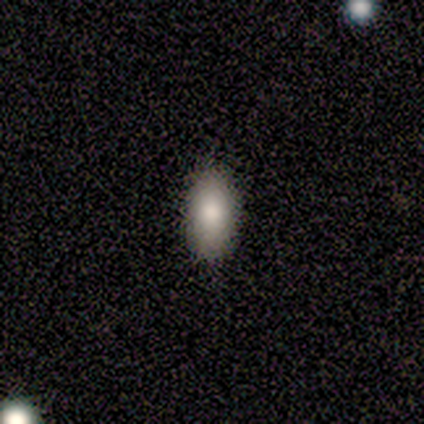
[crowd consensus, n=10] Smooth or featured: smooth — 80% (star or artifact — 20%)
How rounded: in between — 88% (cigar-shaped — 12%)
Merging: none — 100%